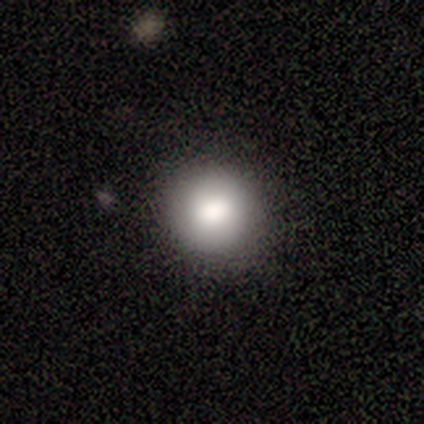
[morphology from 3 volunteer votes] A smooth galaxy with no disk features (100%) that is round (67%). Merging: none (67%).